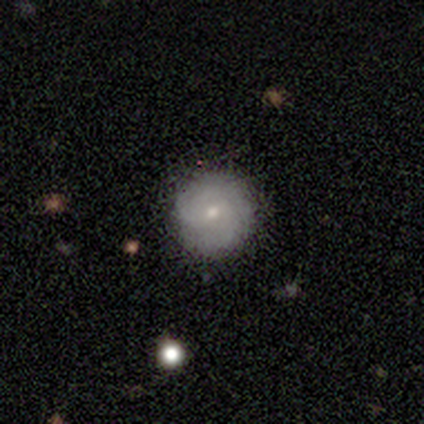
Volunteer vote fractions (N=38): This appears to be a featured or disk galaxy (55%) with no bar (57%), medium (57%) spiral arms (67%) and a small central bulge (57%). Merging: none (83%).